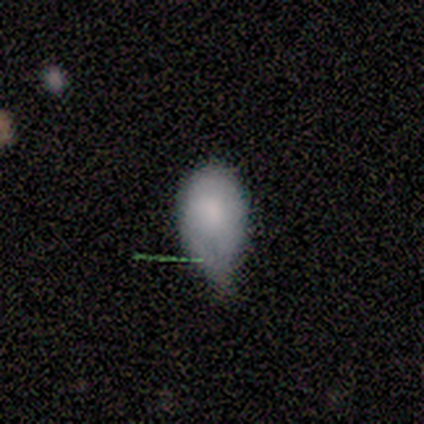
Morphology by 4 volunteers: type=smooth (100%); roundness=in between (75%); merging=minor disturbance (100%).